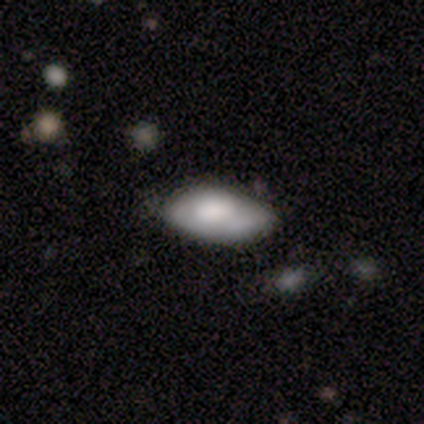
Smooth or featured? smooth (50%, tied with featured or disk)
How rounded? in between (100%)
Merging? minor disturbance (100%)